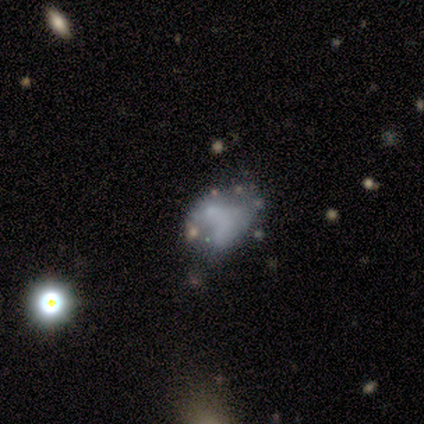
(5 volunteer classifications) smooth-or-featured: smooth: 40% (tied) | featured or disk: 40% (tied) | star or artifact: 20%
  how-rounded: in between: 100% | round: 0% | cigar-shaped: 0%
  merging: major disturbance: 50% | none: 25% | merger: 25% | minor disturbance: 0%